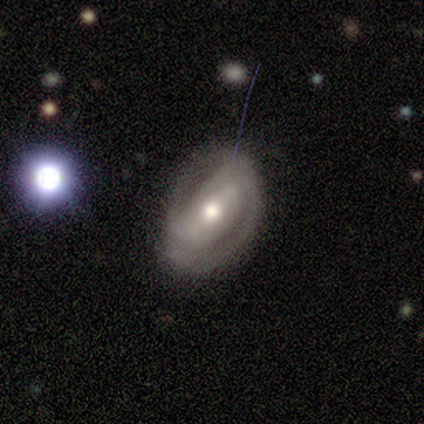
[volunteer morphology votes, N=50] Smooth or featured? featured or disk (82%)
Edge-on disk? no (98%)
Bar? weak (40%)
Spiral arms? yes (78%)
Spiral winding? tight (55%)
Spiral arm count? 2 (87%)
Bulge size? moderate (75%)
Merging? none (54%)